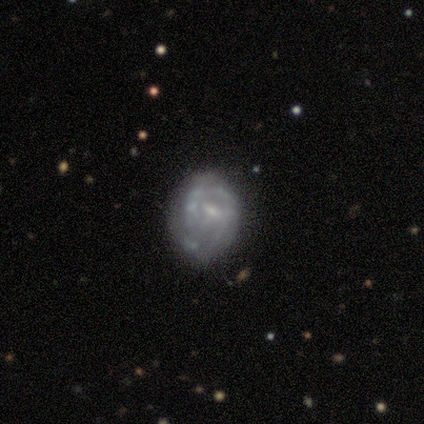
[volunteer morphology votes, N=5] Smooth or featured?
  - featured or disk: 60% *
  - smooth: 40%
  - star or artifact: 0%
Edge-on disk?
  - no: 100% *
  - yes: 0%
Bar?
  - weak: 67% *
  - no: 33%
  - strong: 0%
Spiral arms?
  - no: 67% *
  - yes: 33%
Bulge size?
  - small: 67% *
  - moderate: 33%
  - dominant: 0%
  - large: 0%
  - none: 0%
Merging?
  - none: 60% *
  - minor disturbance: 20%
  - merger: 20%
  - major disturbance: 0%